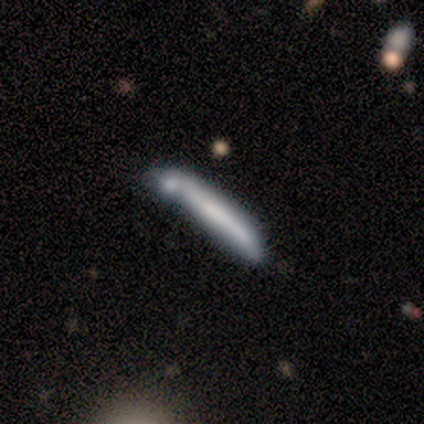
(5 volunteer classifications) This appears to be a smooth galaxy with no disk features (80%) that is cigar-shaped (100%). Merging: none (50%).